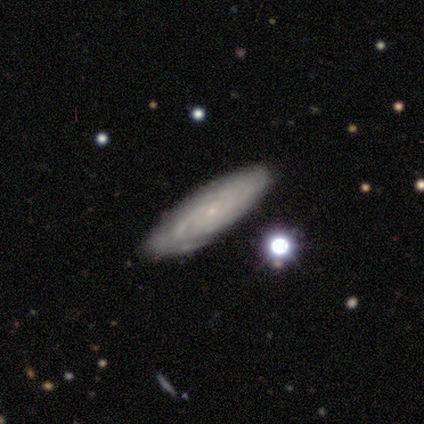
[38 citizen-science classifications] A featured or disk galaxy (79%) with no bar (70%), tight (75%) spiral arms (87%) and a small central bulge (87%). Merging: none (74%).